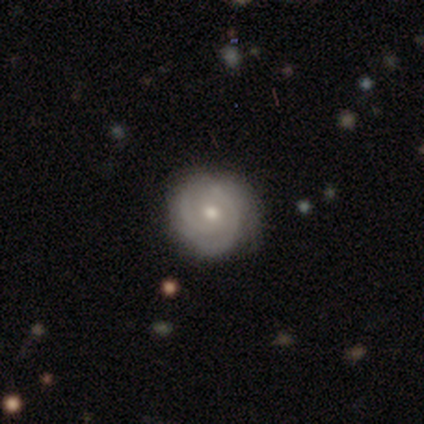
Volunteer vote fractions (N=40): smooth_or_featured: featured or disk (p=0.70) [alt: smooth p=0.23]
disk_edge_on: no (p=0.96) [alt: yes p=0.04]
bar: no (p=0.78) [alt: weak p=0.19]
has_spiral_arms: yes (p=0.93) [alt: no p=0.07]
spiral_winding: tight (p=0.72) [alt: medium p=0.24]
spiral_arm_count: 3 (p=0.36) [alt: 2 p=0.32]
bulge_size: moderate (p=0.67) [alt: small p=0.33]
merging: none (p=0.81) [alt: minor disturbance p=0.16]